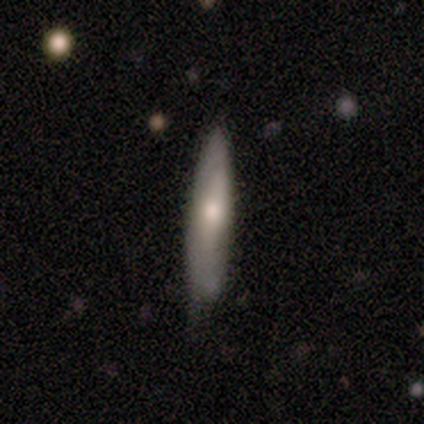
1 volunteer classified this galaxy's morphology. This appears to be a smooth galaxy with no disk features (100%) that is cigar-shaped (100%). Merging: none (100%).